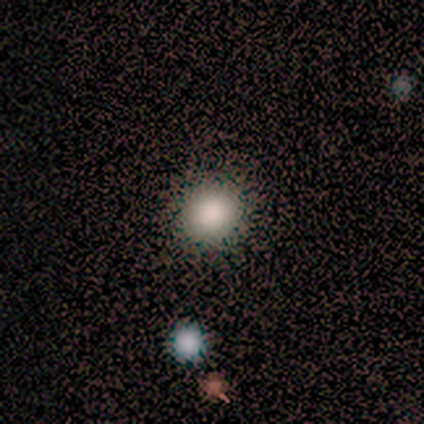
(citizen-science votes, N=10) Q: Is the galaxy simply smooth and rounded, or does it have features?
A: smooth — 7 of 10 (70%).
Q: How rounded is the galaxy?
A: round — 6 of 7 (86%).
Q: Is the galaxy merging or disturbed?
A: none — 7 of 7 (100%).